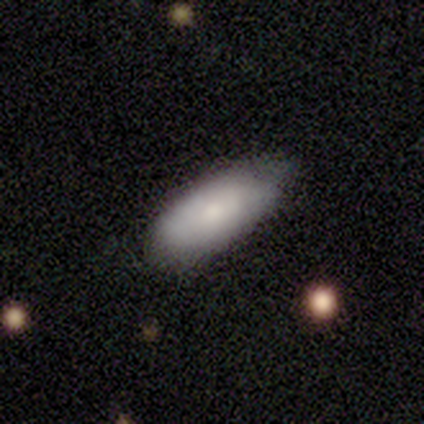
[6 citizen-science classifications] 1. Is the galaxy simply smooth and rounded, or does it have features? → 50% smooth, 33% featured or disk, 17% star or artifact.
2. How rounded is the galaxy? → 100% in between, 0% round, 0% cigar-shaped.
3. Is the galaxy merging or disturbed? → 60% none, 40% minor disturbance, 0% major disturbance, 0% merger.